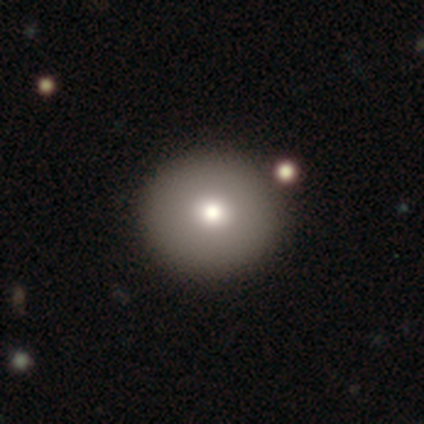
smooth-or-featured: smooth: 86% | featured or disk: 8% | star or artifact: 6%
  how-rounded: round: 100% | in between: 0% | cigar-shaped: 0%
  merging: none: 48% | merger: 5% | minor disturbance: 3% | major disturbance: 1%